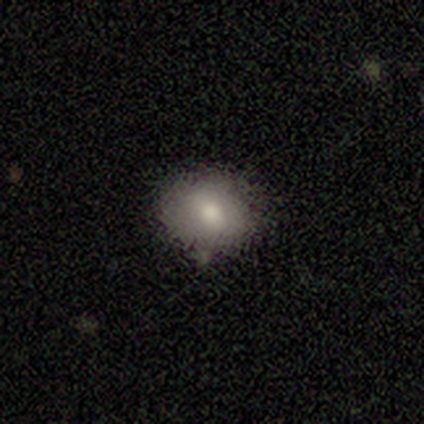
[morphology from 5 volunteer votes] Smooth or featured? smooth (40%, tied with featured or disk)
How rounded? round (100%)
Merging? none (100%)